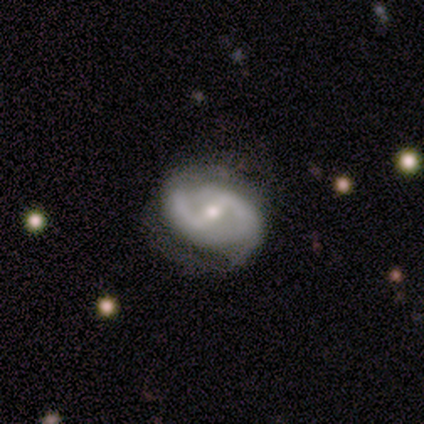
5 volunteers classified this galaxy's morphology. A featured or disk galaxy (100%) with a strong bar (80%), 2 (80%) medium (60%) spiral arms (100%) and a moderate central bulge (100%). Merging: none (60%).